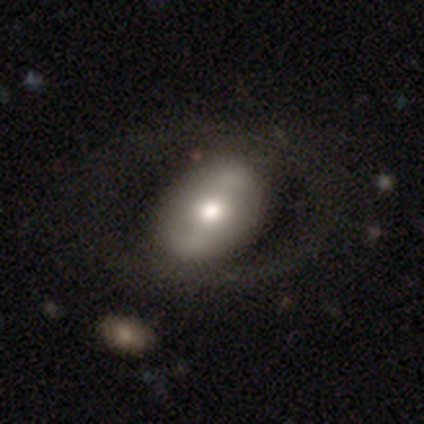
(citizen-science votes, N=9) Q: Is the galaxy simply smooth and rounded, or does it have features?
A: featured or disk — 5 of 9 (56%).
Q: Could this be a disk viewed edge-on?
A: no — 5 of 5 (100%).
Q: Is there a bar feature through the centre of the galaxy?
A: weak — 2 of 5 (40%, tied with no).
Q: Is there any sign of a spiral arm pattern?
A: no — 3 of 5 (60%).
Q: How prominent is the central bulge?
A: large — 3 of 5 (60%).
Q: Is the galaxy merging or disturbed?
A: none — 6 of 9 (67%).